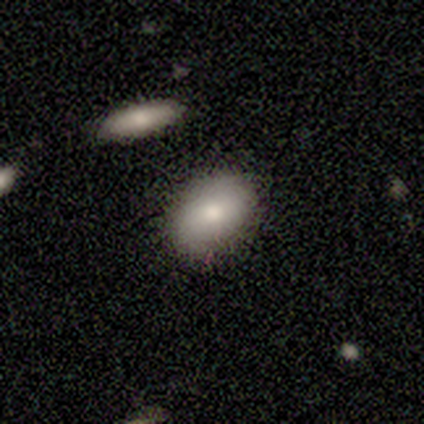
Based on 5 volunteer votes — This appears to be a smooth galaxy with no disk features (80%) that is in between round and cigar-shaped (100%). Merging: none (80%).